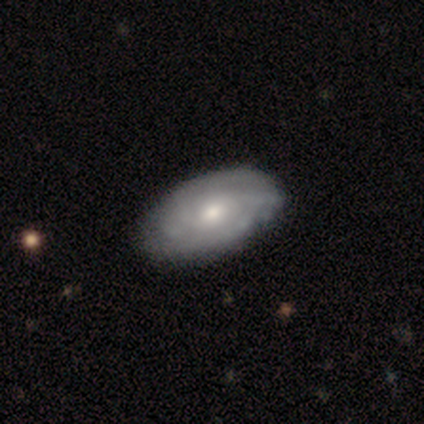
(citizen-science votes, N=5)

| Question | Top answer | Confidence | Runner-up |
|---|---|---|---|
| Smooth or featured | smooth | 40% | tied: featured or disk (40%) |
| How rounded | in between | 100% | — |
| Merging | none | 75% | minor disturbance (25%) |